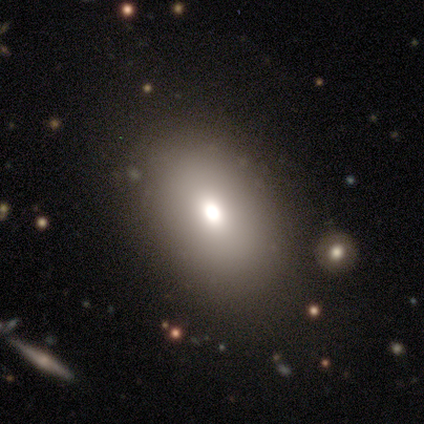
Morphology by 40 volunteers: Smooth or featured? 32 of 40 (80%) said smooth. How rounded? 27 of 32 (84%) said in between. Merging? 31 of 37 (84%) said none.